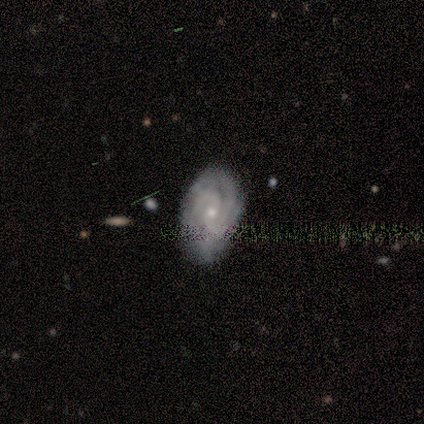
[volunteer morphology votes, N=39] Overall: featured or disk (77%). Edge-on disk: no (97%). Bar: no (66%). Spiral arms: yes (90%). Spiral arm count: can't tell (46%; 3 19%). Spiral winding: tight (65%; medium 27%). Bulge size: small (66%; moderate 28%). Merging: none (82%).